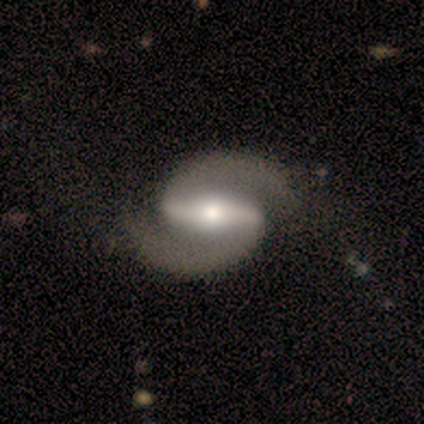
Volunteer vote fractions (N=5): A featured or disk galaxy (100%) with a strong bar (80%), 2 (100%) medium (60%) spiral arms (100%) and a small central bulge (40%).

Vote fractions:
- Smooth or featured? featured or disk: 100% / smooth: 0% / star or artifact: 0%
- Edge-on disk? no: 100% / yes: 0%
- Bar? strong: 80% / weak: 20% / no: 0%
- Spiral arms? yes: 100% / no: 0%
- Spiral winding? medium: 60% / tight: 40% / loose: 0%
- Spiral arm count? 2: 100% / 1: 0% / 3: 0% / 4: 0% / more than 4: 0% / can't tell: 0%
- Bulge size? small: 40% / dominant: 20% / large: 20% / moderate: 20% / none: 0%
- Merging? none: 60% / minor disturbance: 40% / major disturbance: 0% / merger: 0%